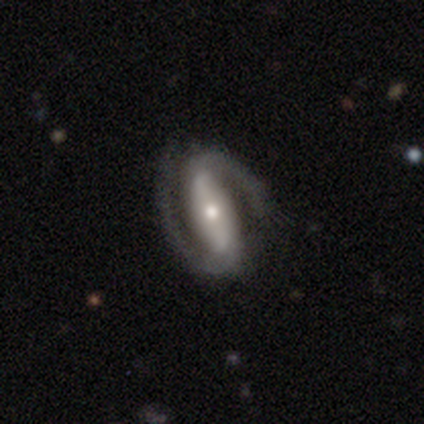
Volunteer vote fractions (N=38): A featured or disk galaxy (87%) with a strong bar (76%), 2 (100%) medium (58%) spiral arms (100%) and a small central bulge (52%). Merging: none (68%).